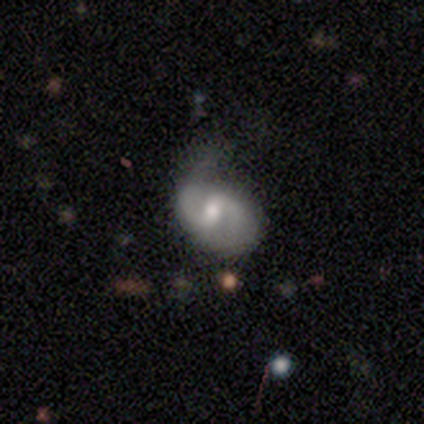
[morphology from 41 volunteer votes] A featured or disk galaxy (88%) with a weak bar (66%), 2 (97%) medium (70%) spiral arms (94%) and a moderate central bulge (71%).

Vote fractions:
- Smooth or featured? featured or disk: 88% / smooth: 12% / star or artifact: 0%
- Edge-on disk? no: 97% / yes: 3%
- Bar? weak: 66% / no: 23% / strong: 11%
- Spiral arms? yes: 94% / no: 6%
- Spiral winding? medium: 70% / tight: 18% / loose: 12%
- Spiral arm count? 2: 97% / can't tell: 3% / 1: 0% / 3: 0% / 4: 0% / more than 4: 0%
- Bulge size? moderate: 71% / small: 23% / large: 6% / dominant: 0% / none: 0%
- Merging? none: 51% / minor disturbance: 22% / major disturbance: 17% / merger: 10%